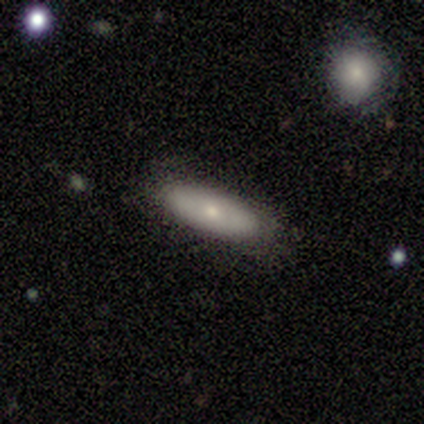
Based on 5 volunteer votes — smooth_or_featured: smooth (p=0.80) [alt: featured or disk p=0.20]
how_rounded: in between (p=0.75) [alt: cigar-shaped p=0.25]
merging: none (p=0.80) [alt: minor disturbance p=0.20]